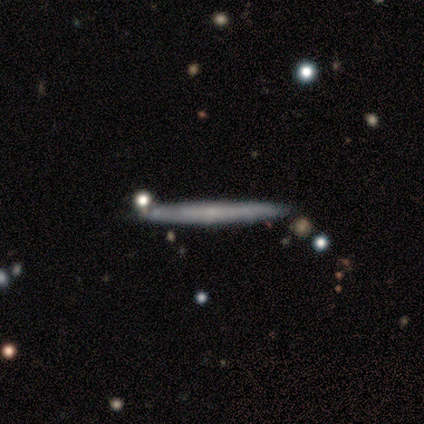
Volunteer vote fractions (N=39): Morphology: type=featured or disk (64%); edge-on=yes (88%); edge-on bulge=none (68%); merging=none (86%).